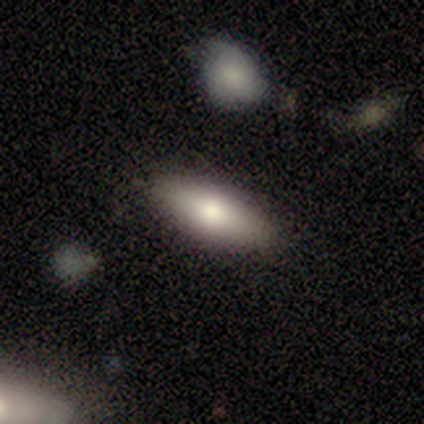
A smooth galaxy with no disk features (71%) that is in between round and cigar-shaped (60%). Merging: none (97%).